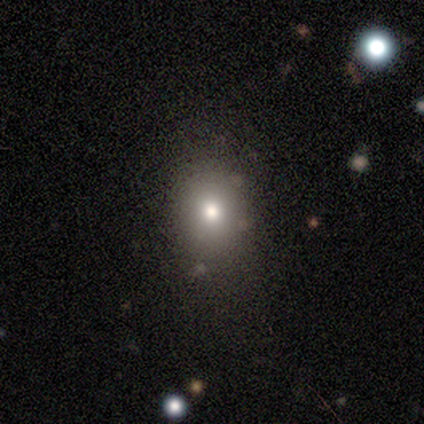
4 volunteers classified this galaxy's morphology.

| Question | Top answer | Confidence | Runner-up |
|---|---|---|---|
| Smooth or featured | smooth | 50% | tied: featured or disk (50%) |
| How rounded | round | 100% | — |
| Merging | none | 100% | — |